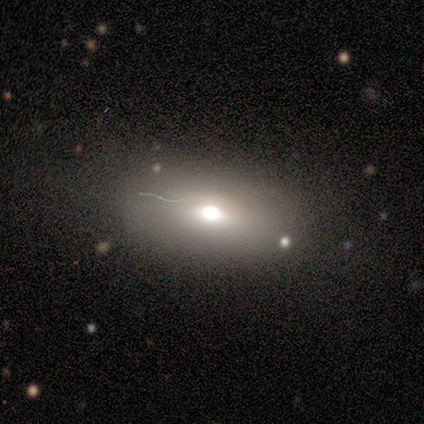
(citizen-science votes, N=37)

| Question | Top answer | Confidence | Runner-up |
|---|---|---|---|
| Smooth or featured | smooth | 70% | featured or disk (19%) |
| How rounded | in between | 88% | round (12%) |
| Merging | none | 70% | minor disturbance (27%) |